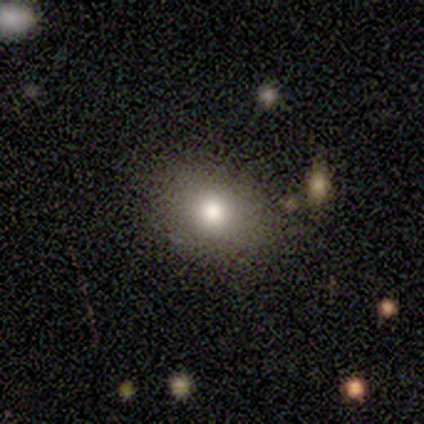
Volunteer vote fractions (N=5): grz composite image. It shows a smooth galaxy with no disk features (80%) that is round (75%). Merging: none (75%).